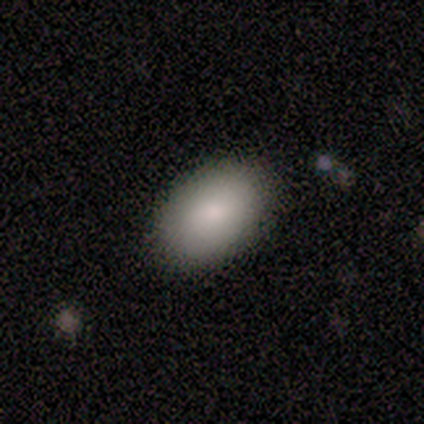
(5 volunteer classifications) Smooth or featured? smooth (80%)
How rounded? in between (100%)
Merging? none (100%)